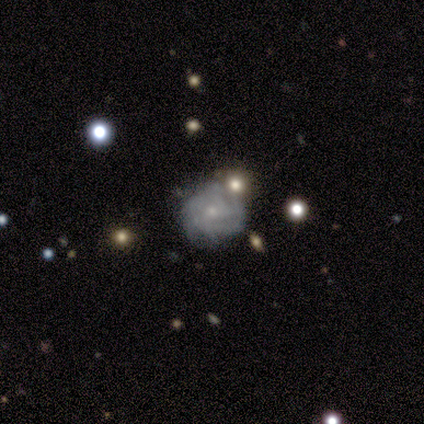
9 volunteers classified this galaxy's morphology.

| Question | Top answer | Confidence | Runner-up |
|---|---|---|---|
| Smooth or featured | featured or disk | 78% | smooth (22%) |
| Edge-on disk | no | 100% | — |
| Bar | no | 86% | weak (14%) |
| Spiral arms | yes | 71% | no (29%) |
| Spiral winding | tight | 60% | medium (20%) |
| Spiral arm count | can't tell | 100% | — |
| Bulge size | small | 57% | large (14%) |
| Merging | none | 44% | minor disturbance (33%) |